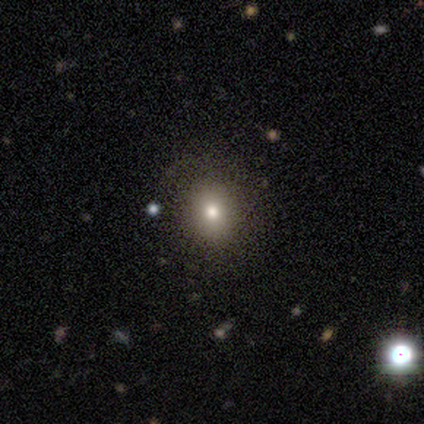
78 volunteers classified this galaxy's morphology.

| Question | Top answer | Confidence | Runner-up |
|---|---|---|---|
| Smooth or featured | smooth | 68% | featured or disk (18%) |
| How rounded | round | 72% | in between (28%) |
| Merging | none | 48% | minor disturbance (3%) |